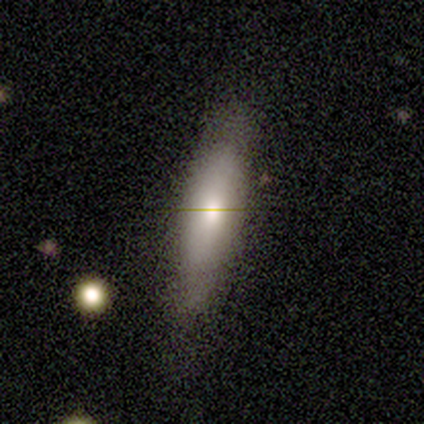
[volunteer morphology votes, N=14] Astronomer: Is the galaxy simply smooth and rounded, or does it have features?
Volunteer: smooth — 86%.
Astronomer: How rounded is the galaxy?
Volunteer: in between — 58% (runner-up: cigar-shaped, 42%).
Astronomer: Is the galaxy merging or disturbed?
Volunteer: none — 79%.